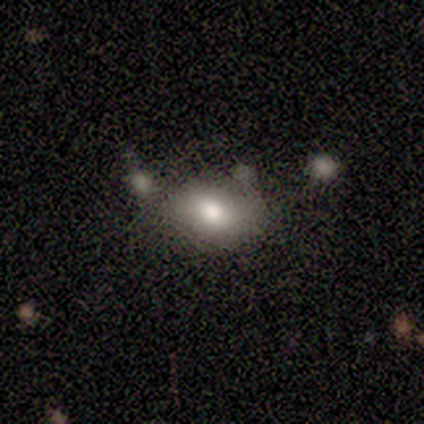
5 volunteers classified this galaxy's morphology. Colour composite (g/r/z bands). It shows a smooth galaxy with no disk features (100%) that is in between round and cigar-shaped (100%). Merging: none (40%, tied with minor disturbance).